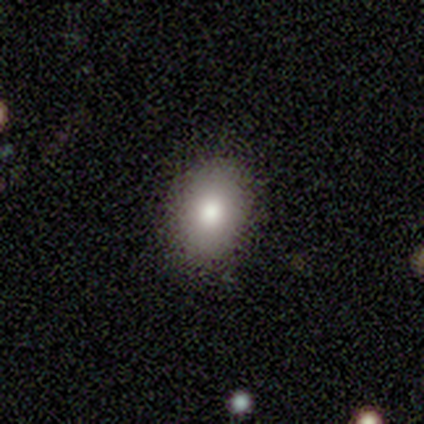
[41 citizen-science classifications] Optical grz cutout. It shows a smooth galaxy with no disk features (78%) that is in between round and cigar-shaped (69%). Merging: none (95%).